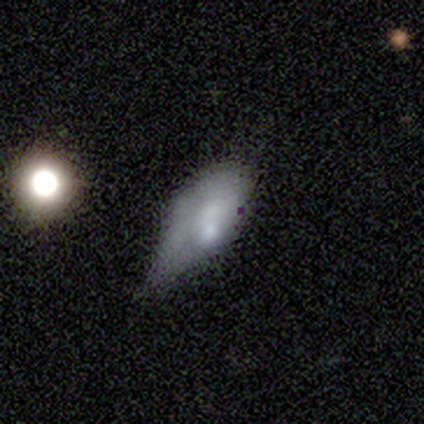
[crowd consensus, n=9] Smooth or featured: smooth — 78% (featured or disk — 22%)
How rounded: in between — 100%
Merging: minor disturbance — 56% (none — 33%)